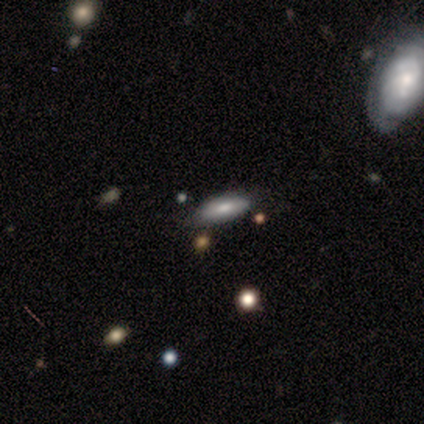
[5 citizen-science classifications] A smooth galaxy with no disk features (100%) that is in between round and cigar-shaped (60%). Merging: none (80%).